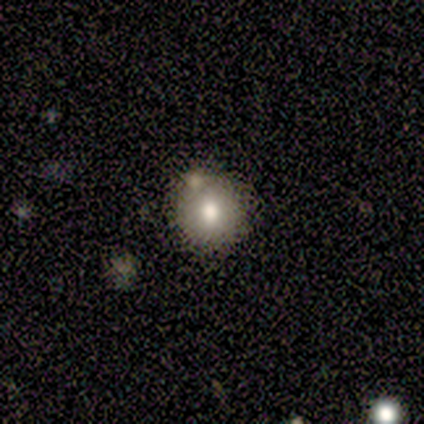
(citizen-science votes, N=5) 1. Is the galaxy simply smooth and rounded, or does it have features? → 80% smooth, 20% featured or disk, 0% star or artifact.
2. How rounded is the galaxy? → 100% round, 0% in between, 0% cigar-shaped.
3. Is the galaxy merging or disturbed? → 100% none, 0% minor disturbance, 0% major disturbance, 0% merger.